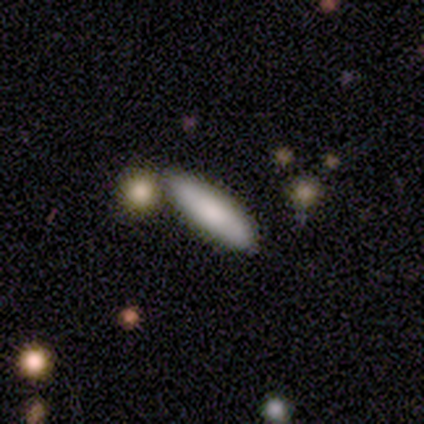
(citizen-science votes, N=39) Morphology: type=smooth (79%); roundness=cigar-shaped (74%); merging=none (82%).